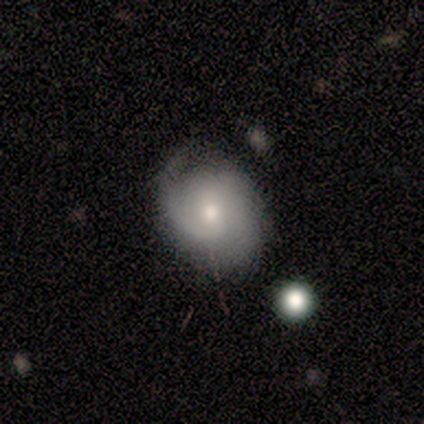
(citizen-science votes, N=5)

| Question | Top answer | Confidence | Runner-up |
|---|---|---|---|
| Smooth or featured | featured or disk | 80% | smooth (20%) |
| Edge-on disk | no | 75% | yes (25%) |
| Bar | no | 67% | weak (33%) |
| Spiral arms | yes | 100% | — |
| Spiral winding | tight | 67% | loose (33%) |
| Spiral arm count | can't tell | 67% | 1 (33%) |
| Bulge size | moderate | 67% | small (33%) |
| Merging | none | 60% | minor disturbance (40%) |